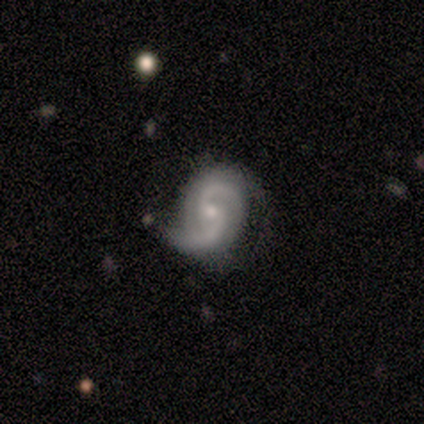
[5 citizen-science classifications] smooth_or_featured: featured or disk (p=0.80) [alt: smooth p=0.20]
disk_edge_on: no (p=1.00)
bar: weak (p=0.75) [alt: no p=0.25]
has_spiral_arms: yes (p=1.00)
spiral_winding: loose (p=1.00)
spiral_arm_count: 2 (p=1.00)
bulge_size: moderate (p=0.50) [tied with: small p=0.50]
merging: none (p=0.60) [alt: minor disturbance p=0.40]